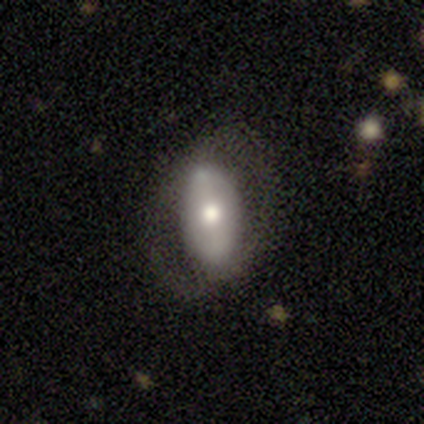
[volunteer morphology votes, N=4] This is possibly a smooth galaxy (50%, tied with featured or disk). How rounded: clearly in between (100%). Merging: likely none (75%).